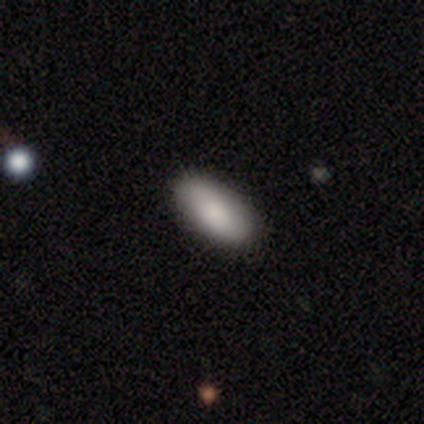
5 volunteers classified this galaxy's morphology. Smooth or featured? smooth (60%)
How rounded? in between (100%)
Merging? none (60%)